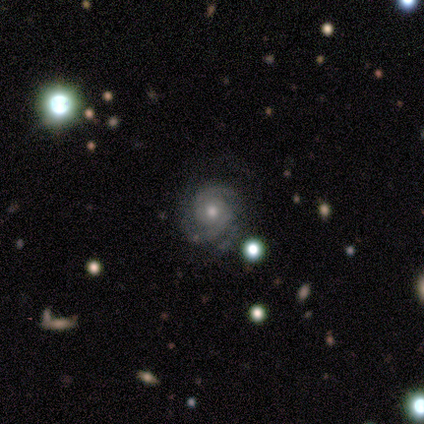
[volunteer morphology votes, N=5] featured or disk 80%, star or artifact 20%, smooth 0%. Down the decision tree: edge-on disk — no (100%); bar — no (75%); spiral arms — yes (100%); spiral arm count — 2 (75%); spiral winding — tight (75%); bulge size — moderate (100%); merging — none (100%).